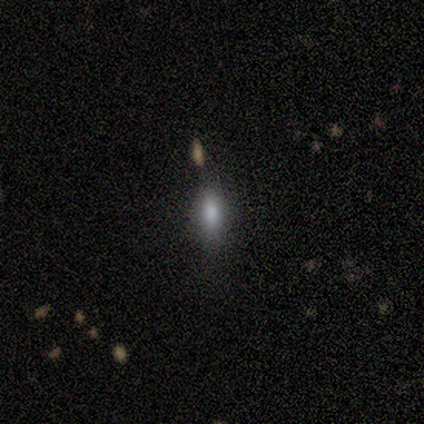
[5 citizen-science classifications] A smooth galaxy with no disk features (80%) that is in between round and cigar-shaped (100%).

Vote fractions:
- Smooth or featured? smooth: 80% / star or artifact: 20% / featured or disk: 0%
- How rounded? in between: 100% / round: 0% / cigar-shaped: 0%
- Merging? none: 100% / minor disturbance: 0% / major disturbance: 0% / merger: 0%